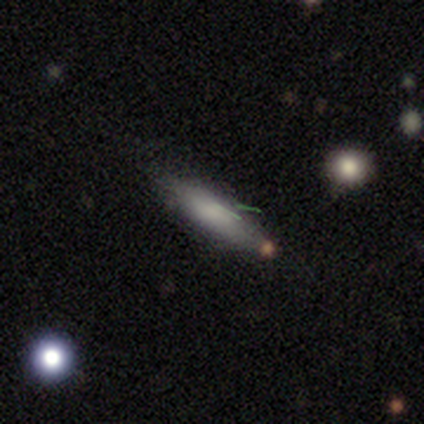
smooth_or_featured: smooth (p=0.86) [alt: star or artifact p=0.14]
how_rounded: in between (p=0.50) [tied with: cigar-shaped p=0.50]
merging: none (p=1.00)